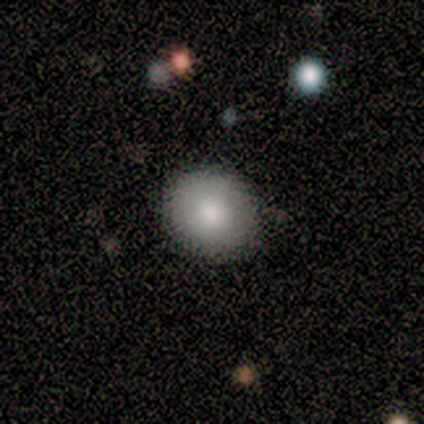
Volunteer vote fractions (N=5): A smooth galaxy with no disk features (100%) that is round (100%).

Vote fractions:
- Smooth or featured? smooth: 100% / featured or disk: 0% / star or artifact: 0%
- How rounded? round: 100% / in between: 0% / cigar-shaped: 0%
- Merging? none: 100% / minor disturbance: 0% / major disturbance: 0% / merger: 0%